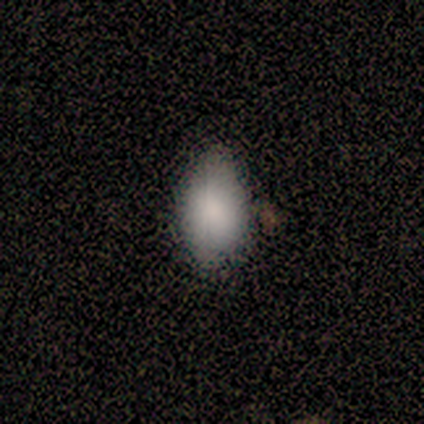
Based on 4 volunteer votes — Overall: smooth (100%). How rounded: round (50%; in between 25%). Merging: none (100%).